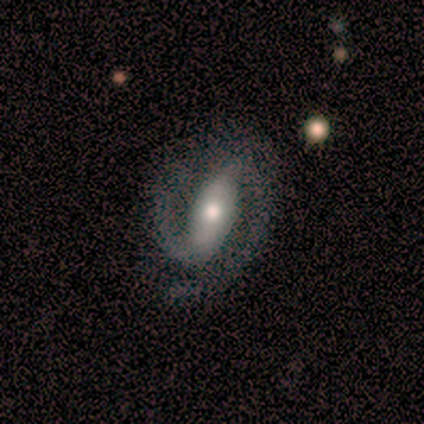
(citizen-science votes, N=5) Smooth or featured? 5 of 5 (100%) said featured or disk. Edge-on disk? 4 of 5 (80%) said no. Bar? 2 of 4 (50%) said weak. Spiral arms? 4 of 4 (100%) said yes. Spiral winding? 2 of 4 (50%, tied with medium) said tight. Spiral arm count? 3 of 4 (75%) said 2. Bulge size? 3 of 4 (75%) said moderate. Merging? 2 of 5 (40%, tied with minor disturbance) said none.